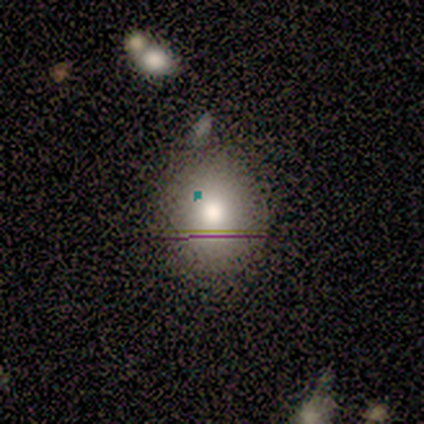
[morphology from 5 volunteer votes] Q: Smooth or featured?
A: smooth (60%); runner-up: star or artifact (40%)
Q: How rounded?
A: round (67%); runner-up: in between (33%)
Q: Merging?
A: none (67%); runner-up: minor disturbance (33%)